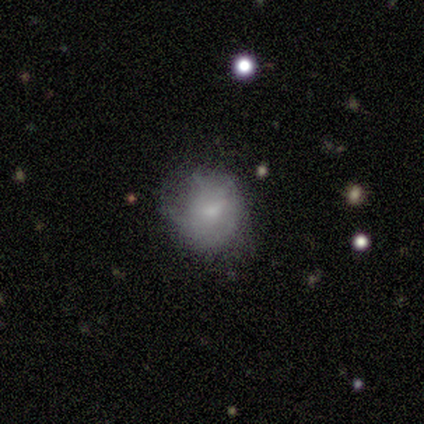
Q: Smooth or featured?
A: smooth (50%); runner-up: featured or disk (25%)
Q: How rounded?
A: round (100%)
Q: Merging?
A: none (100%)